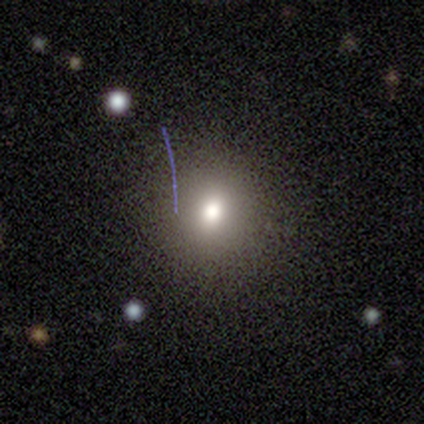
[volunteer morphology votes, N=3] Q: Smooth or featured?
A: smooth (100%)
Q: How rounded?
A: round (100%)
Q: Merging?
A: none (100%)